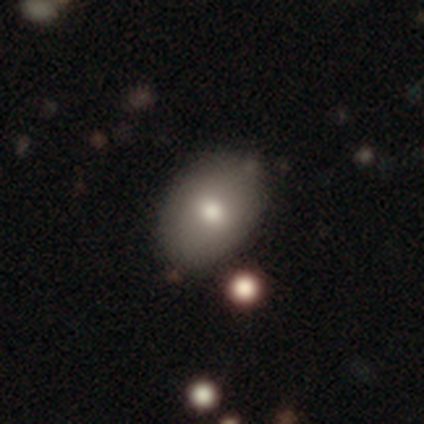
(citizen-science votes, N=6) Smooth or featured? 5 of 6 (83%) said smooth. How rounded? 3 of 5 (60%) said round. Merging? 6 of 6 (100%) said none.